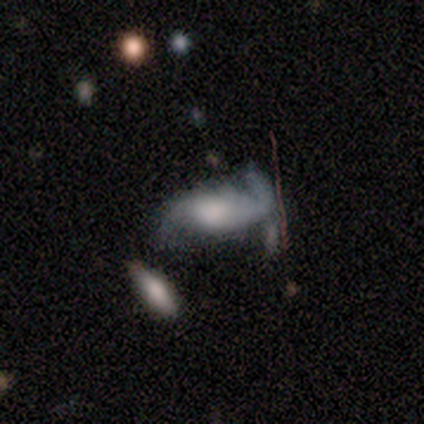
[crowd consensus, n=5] featured or disk 60%, smooth 40%, star or artifact 0%. Down the decision tree: edge-on disk — no (100%); bar — no (67%); spiral arms — yes (100%); spiral arm count — 2 (67%); spiral winding — loose (67%); bulge size — moderate (67%); merging — major disturbance (40%).